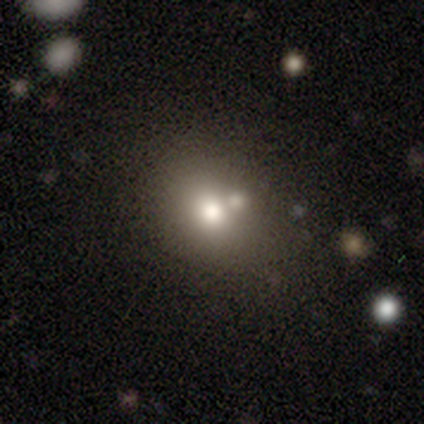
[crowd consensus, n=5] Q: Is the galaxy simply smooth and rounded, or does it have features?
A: smooth — 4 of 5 (80%).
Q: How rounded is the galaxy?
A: round — 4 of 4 (100%).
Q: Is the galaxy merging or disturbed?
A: none — 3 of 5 (60%).